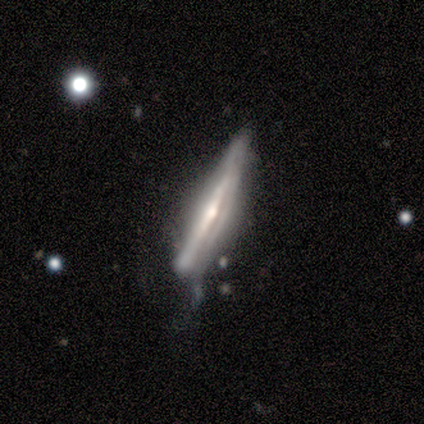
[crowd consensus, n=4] Smooth or featured? featured or disk (75%)
Edge-on disk? yes (100%)
Edge-on bulge? rounded (100%)
Merging? minor disturbance (75%)